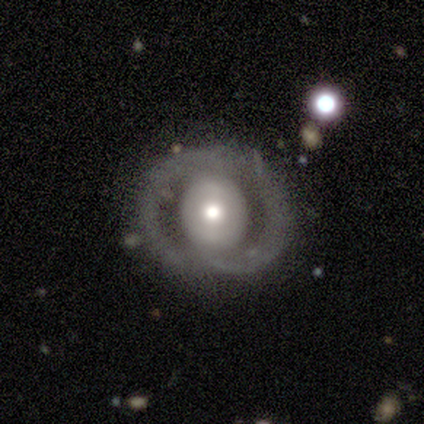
Morphology: type=featured or disk (61%); edge-on=no (91%); bar=no (71%); spiral arms=no (71%); bulge=moderate (62%); merging=none (59%).